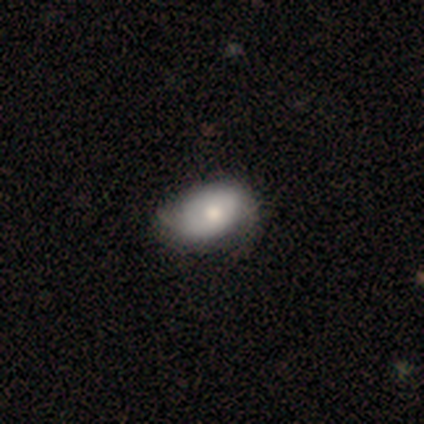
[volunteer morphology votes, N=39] Smooth or featured?
  - smooth: 62% *
  - featured or disk: 33%
  - star or artifact: 5%
How rounded?
  - in between: 96% *
  - round: 4%
  - cigar-shaped: 0%
Merging?
  - none: 46% *
  - minor disturbance: 27%
  - major disturbance: 0%
  - merger: 0%